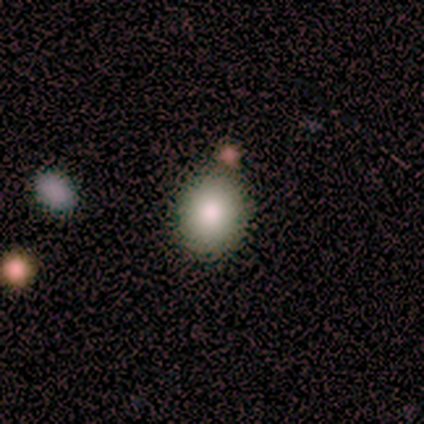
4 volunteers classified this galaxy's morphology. Smooth or featured?
  - smooth: 75% *
  - featured or disk: 25%
  - star or artifact: 0%
How rounded?
  - round: 67% *
  - in between: 33%
  - cigar-shaped: 0%
Merging?
  - none: 100% *
  - minor disturbance: 0%
  - major disturbance: 0%
  - merger: 0%